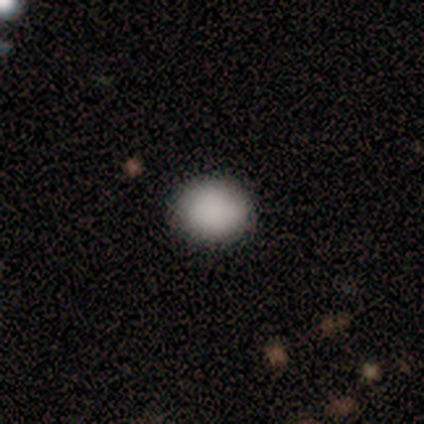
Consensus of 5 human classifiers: Smooth or featured? 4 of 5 (80%) said smooth. How rounded? 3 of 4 (75%) said round. Merging? 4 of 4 (100%) said none.